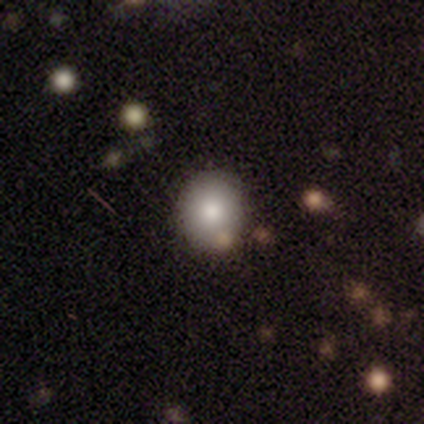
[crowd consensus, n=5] A smooth galaxy with no disk features (80%) that is round (100%). Merging: none (60%).